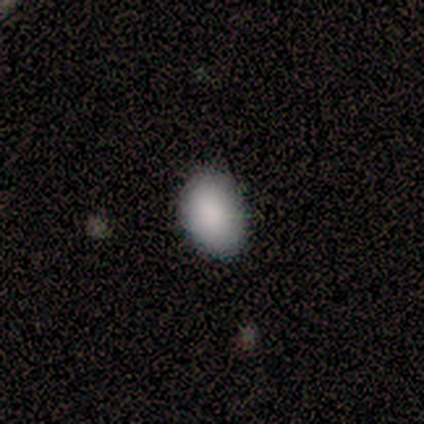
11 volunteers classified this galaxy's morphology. This is clearly a smooth galaxy (91%). How rounded: clearly in between (80%). Merging: likely none (64%).